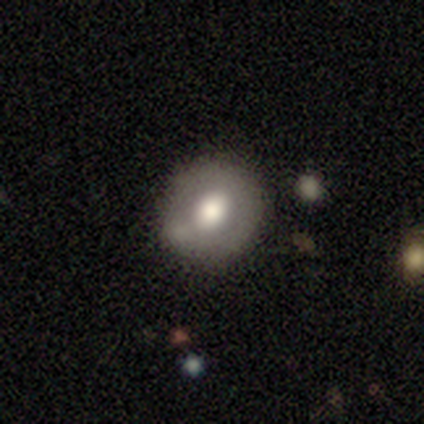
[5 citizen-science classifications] smooth 80%, star or artifact 20%, featured or disk 0%. Down the decision tree: how rounded — round (100%); merging — none (50%, tied with minor disturbance).